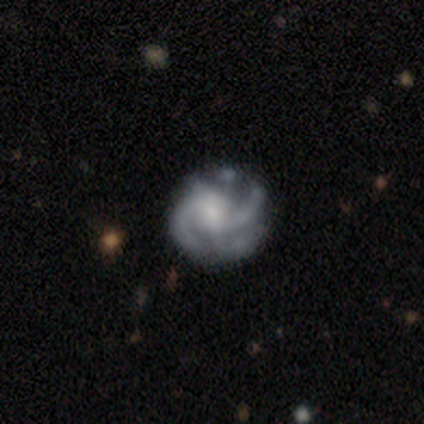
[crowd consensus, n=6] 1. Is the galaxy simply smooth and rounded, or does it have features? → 83% featured or disk, 17% smooth, 0% star or artifact.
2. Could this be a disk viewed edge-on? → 100% no, 0% yes.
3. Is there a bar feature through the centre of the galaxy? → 80% no, 20% weak, 0% strong.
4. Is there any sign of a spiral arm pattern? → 80% yes, 20% no.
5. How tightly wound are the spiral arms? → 75% tight, 25% medium, 0% loose.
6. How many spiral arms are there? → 75% 2, 25% more than 4, 0% 1, 0% 3, 0% 4, 0% can't tell.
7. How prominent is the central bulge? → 60% moderate, 20% small, 20% none, 0% dominant, 0% large.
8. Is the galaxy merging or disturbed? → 67% minor disturbance, 33% major disturbance, 0% none, 0% merger.